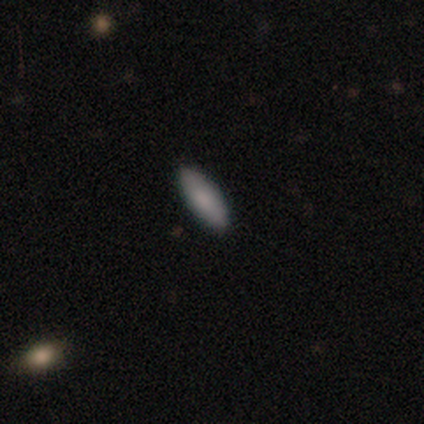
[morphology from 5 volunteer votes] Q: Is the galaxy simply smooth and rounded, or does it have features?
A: smooth — 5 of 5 (100%).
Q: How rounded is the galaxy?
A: in between — 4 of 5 (80%).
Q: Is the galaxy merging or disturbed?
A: none — 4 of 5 (80%).